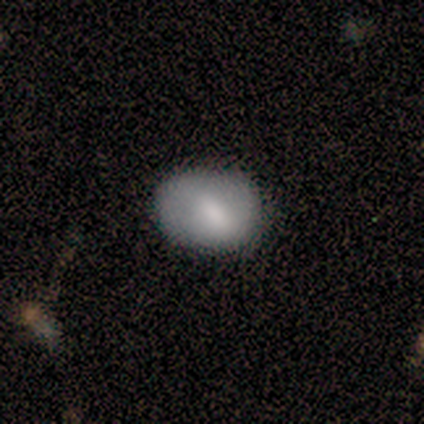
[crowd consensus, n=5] Q: Smooth or featured?
A: featured or disk (60%); runner-up: smooth (40%)
Q: Edge-on disk?
A: no (67%); runner-up: yes (33%)
Q: Bar?
A: strong (50%); tied with: weak (50%)
Q: Spiral arms?
A: no (100%)
Q: Bulge size?
A: moderate (100%)
Q: Merging?
A: none (100%)